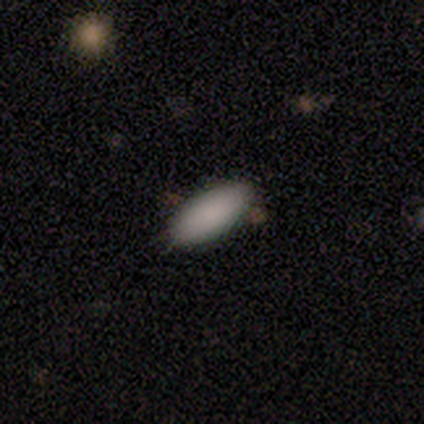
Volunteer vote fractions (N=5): A smooth galaxy with no disk features (100%) that is in between round and cigar-shaped (100%).

Vote fractions:
- Smooth or featured? smooth: 100% / featured or disk: 0% / star or artifact: 0%
- How rounded? in between: 100% / round: 0% / cigar-shaped: 0%
- Merging? none: 80% / minor disturbance: 20% / major disturbance: 0% / merger: 0%